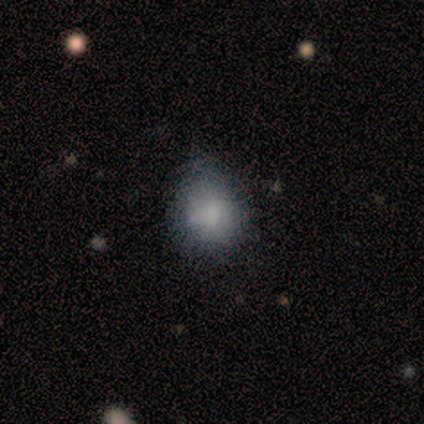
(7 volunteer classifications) This is clearly a smooth galaxy (86%). How rounded: clearly round (100%). Merging: clearly none (86%).